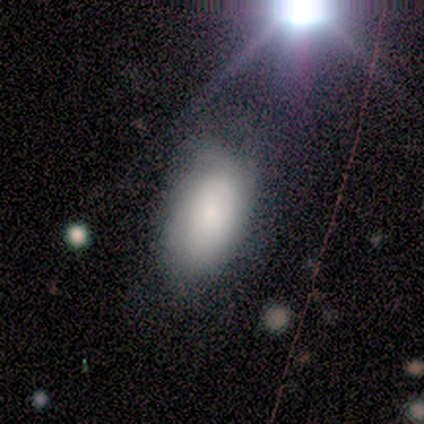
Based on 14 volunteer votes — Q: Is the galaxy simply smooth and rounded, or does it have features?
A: smooth — 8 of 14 (57%).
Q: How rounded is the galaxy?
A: in between — 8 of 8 (100%).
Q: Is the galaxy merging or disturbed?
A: none — 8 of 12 (67%).